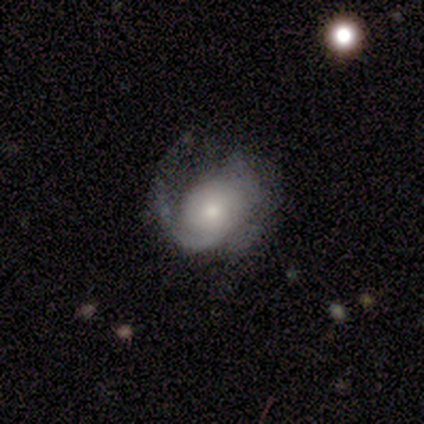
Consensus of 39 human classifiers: Smooth or featured?
  - featured or disk: 69% *
  - smooth: 23%
  - star or artifact: 8%
Edge-on disk?
  - no: 96% *
  - yes: 4%
Bar?
  - no: 88% *
  - strong: 8%
  - weak: 4%
Spiral arms?
  - yes: 96% *
  - no: 4%
Spiral winding?
  - medium: 52% *
  - tight: 40%
  - loose: 8%
Spiral arm count?
  - 2: 36% * (tied)
  - can't tell: 36% * (tied)
  - 1: 28%
  - 3: 0%
  - 4: 0%
  - more than 4: 0%
Bulge size?
  - small: 38% *
  - moderate: 35%
  - large: 15%
  - dominant: 8%
  - none: 4%
Merging?
  - none: 58% *
  - major disturbance: 31%
  - minor disturbance: 8%
  - merger: 3%